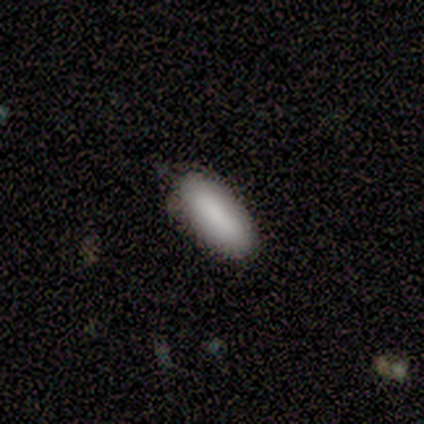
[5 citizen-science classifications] Smooth or featured?
  - smooth: 100% *
  - featured or disk: 0%
  - star or artifact: 0%
How rounded?
  - in between: 100% *
  - round: 0%
  - cigar-shaped: 0%
Merging?
  - none: 100% *
  - minor disturbance: 0%
  - major disturbance: 0%
  - merger: 0%